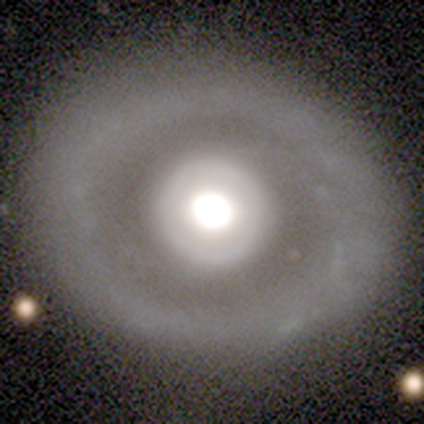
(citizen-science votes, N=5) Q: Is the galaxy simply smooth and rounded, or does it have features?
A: featured or disk — 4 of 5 (80%).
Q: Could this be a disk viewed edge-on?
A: no — 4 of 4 (100%).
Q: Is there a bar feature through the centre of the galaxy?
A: no — 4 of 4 (100%).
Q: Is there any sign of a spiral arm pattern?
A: yes — 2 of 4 (50%, tied with no).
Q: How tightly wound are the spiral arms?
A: tight — 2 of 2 (100%).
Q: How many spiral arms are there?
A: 1 — 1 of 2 (50%, tied with can't tell).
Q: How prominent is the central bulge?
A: large — 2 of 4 (50%, tied with moderate).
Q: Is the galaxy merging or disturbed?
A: none — 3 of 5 (60%).